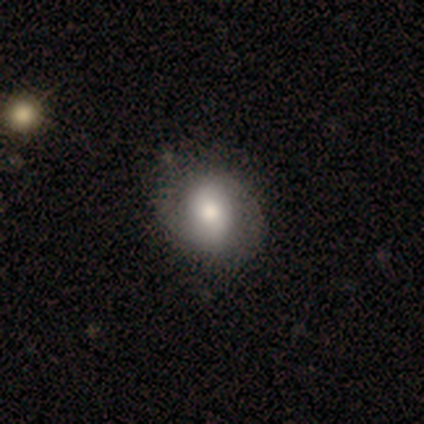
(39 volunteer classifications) Volunteers were most divided on "smooth or featured" (2-way tie): smooth: 44%, featured or disk: 44%, star or artifact: 13%. Remaining: how rounded — round (65%); merging — none (47%).